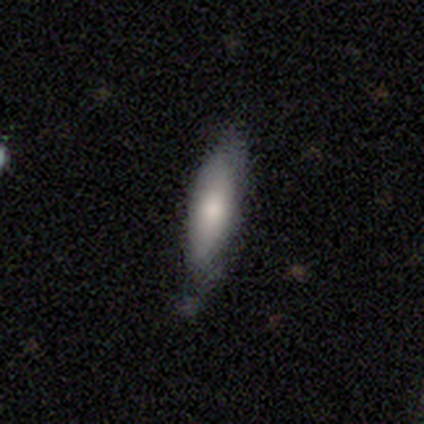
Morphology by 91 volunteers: Smooth or featured? smooth (78%)
How rounded? cigar-shaped (68%)
Merging? none (59%)